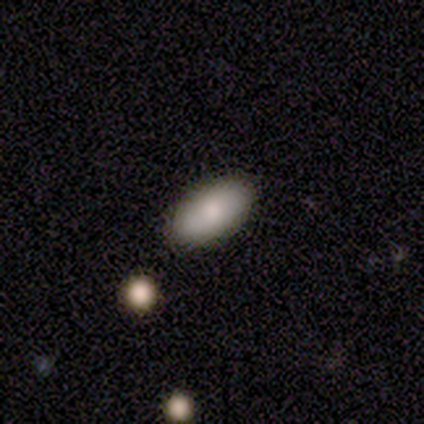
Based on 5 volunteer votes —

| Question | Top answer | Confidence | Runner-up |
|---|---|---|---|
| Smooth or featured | smooth | 100% | — |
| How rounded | in between | 100% | — |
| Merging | none | 80% | minor disturbance (20%) |